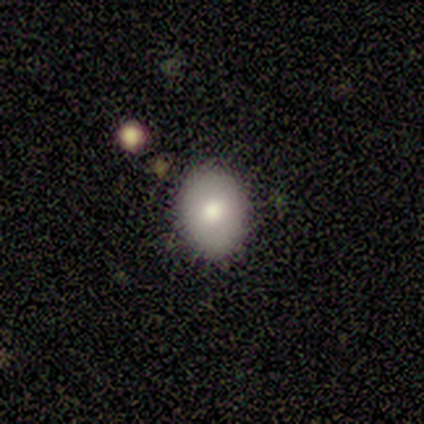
Smooth or featured: smooth — 100%
How rounded: round — 50% (tied with in between — 50%)
Merging: none — 100%